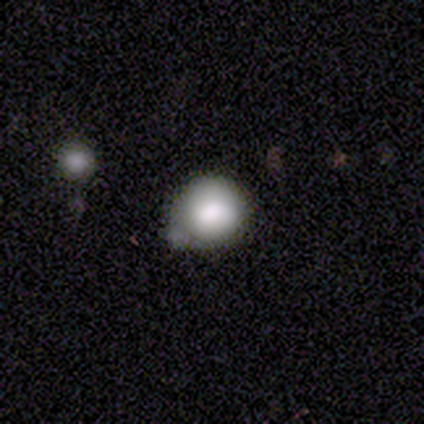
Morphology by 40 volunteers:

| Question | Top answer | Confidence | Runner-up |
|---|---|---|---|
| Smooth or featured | smooth | 78% | star or artifact (12%) |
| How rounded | round | 90% | in between (10%) |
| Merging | none | 49% | minor disturbance (29%) |